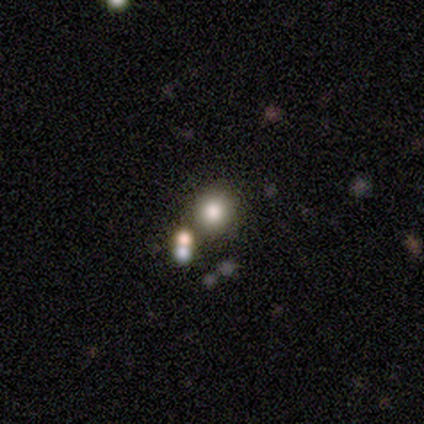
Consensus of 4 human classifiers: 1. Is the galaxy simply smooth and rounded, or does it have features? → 50% smooth, 25% featured or disk, 25% star or artifact.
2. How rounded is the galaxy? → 100% round, 0% in between, 0% cigar-shaped.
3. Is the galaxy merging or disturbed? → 100% none, 0% minor disturbance, 0% major disturbance, 0% merger.